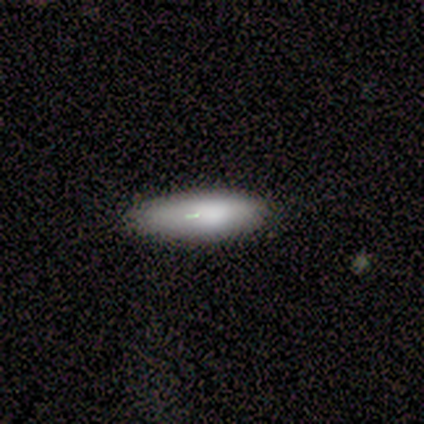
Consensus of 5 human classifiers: Overall: smooth (80%). How rounded: in between (50%, tied with cigar-shaped). Merging: none (80%).